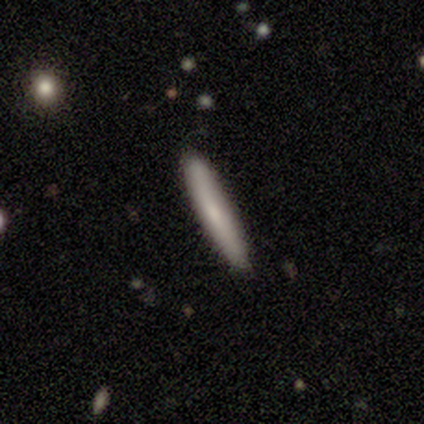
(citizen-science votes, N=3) smooth_or_featured: smooth (p=1.00)
how_rounded: cigar-shaped (p=1.00)
merging: none (p=1.00)